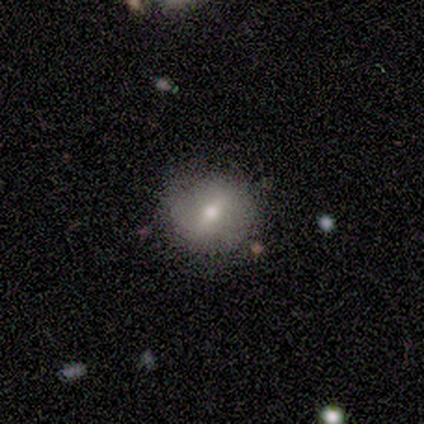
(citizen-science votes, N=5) smooth 80%, star or artifact 20%, featured or disk 0%. Down the decision tree: how rounded — round (100%); merging — none (75%).